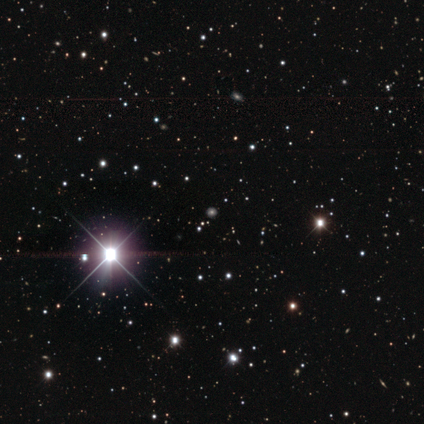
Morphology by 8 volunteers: Smooth or featured? 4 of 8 (50%) said star or artifact.